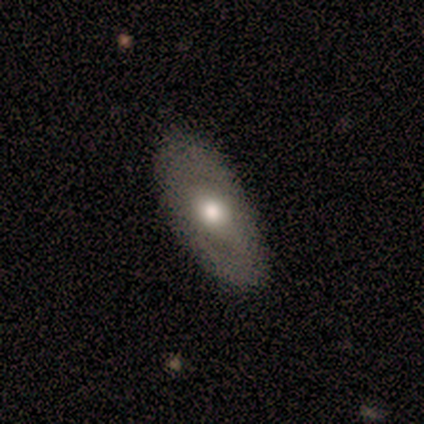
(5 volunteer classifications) Smooth or featured?
  - featured or disk: 80% *
  - smooth: 20%
  - star or artifact: 0%
Edge-on disk?
  - no: 100% *
  - yes: 0%
Bar?
  - no: 100% *
  - strong: 0%
  - weak: 0%
Spiral arms?
  - no: 75% *
  - yes: 25%
Bulge size?
  - large: 50% * (tied)
  - moderate: 50% * (tied)
  - dominant: 0%
  - small: 0%
  - none: 0%
Merging?
  - none: 80% *
  - major disturbance: 20%
  - minor disturbance: 0%
  - merger: 0%